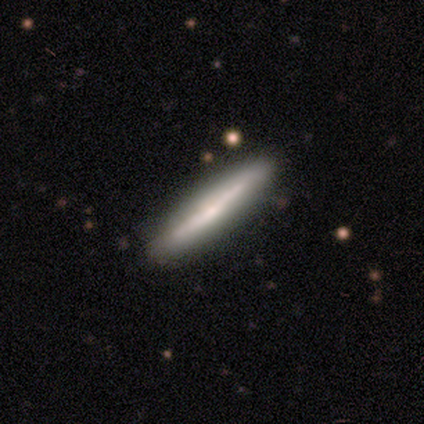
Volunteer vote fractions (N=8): Volunteers were most divided on "smooth or featured": smooth: 75%, featured or disk: 25%, star or artifact: 0%. More confident: how rounded — cigar-shaped (100%); merging — none (100%).